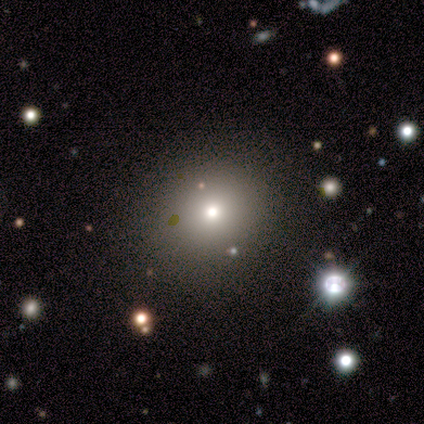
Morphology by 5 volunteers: Smooth or featured? 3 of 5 (60%) said star or artifact.